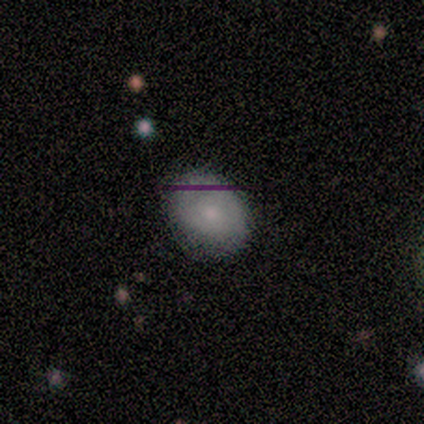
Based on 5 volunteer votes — smooth-or-featured: smooth: 40% (tied) | star or artifact: 40% (tied) | featured or disk: 20%
  how-rounded: in between: 100% | round: 0% | cigar-shaped: 0%
  merging: minor disturbance: 67% | none: 33% | major disturbance: 0% | merger: 0%